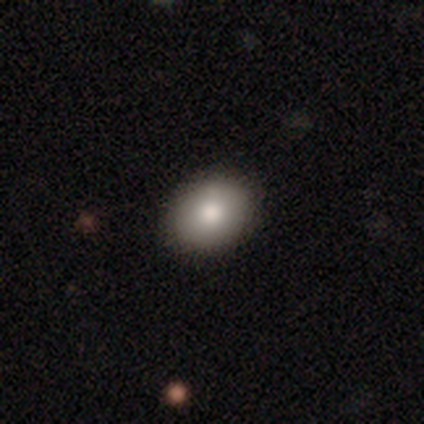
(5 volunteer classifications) Smooth or featured: smooth — 100%
How rounded: in between — 80% (round — 20%)
Merging: none — 100%